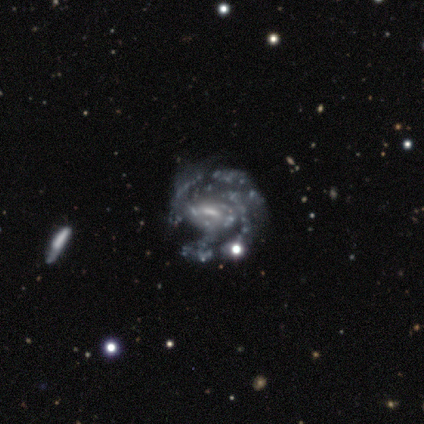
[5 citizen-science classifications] This appears to be a featured or disk galaxy (80%) with a weak bar (50%), tight (50%, tied with medium) spiral arms (100%) and a moderate central bulge (50%, tied with small). Merging: none (75%).